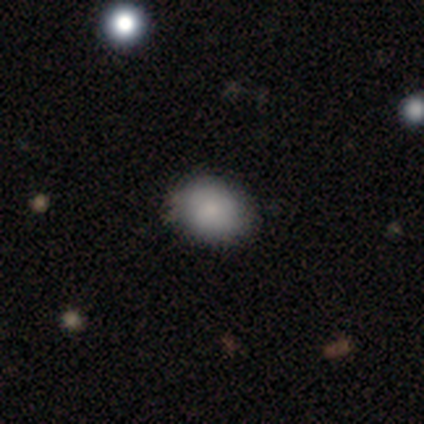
Smooth or featured: smooth — 83% (featured or disk — 17%)
How rounded: in between — 80% (round — 20%)
Merging: none — 83% (minor disturbance — 17%)